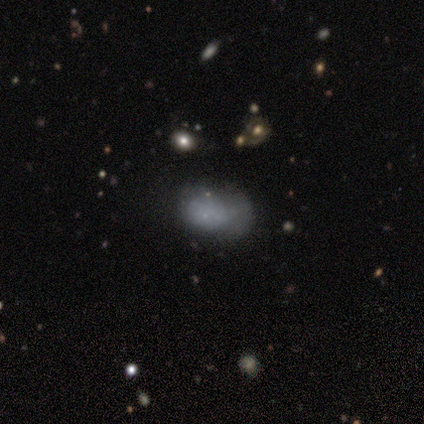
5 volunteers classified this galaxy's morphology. type=smooth (80%); roundness=in between (100%); merging=minor disturbance (60%).